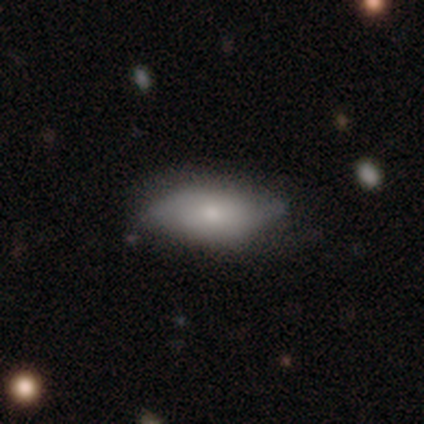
A smooth galaxy with no disk features (78%) that is in between round and cigar-shaped (90%).

Vote fractions:
- Smooth or featured? smooth: 78% / featured or disk: 22% / star or artifact: 0%
- How rounded? in between: 90% / cigar-shaped: 10% / round: 0%
- Merging? none: 65% / minor disturbance: 30% / major disturbance: 3% / merger: 3%